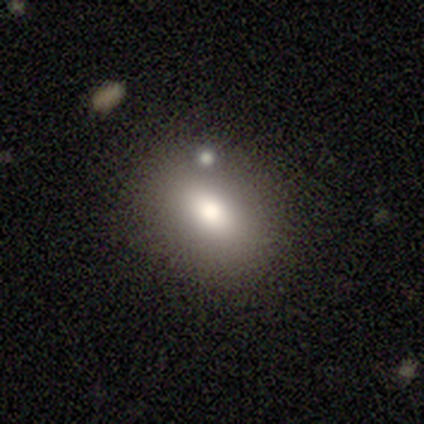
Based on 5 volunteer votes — This appears to be a smooth galaxy with no disk features (100%) that is in between round and cigar-shaped (60%). Merging: none (80%).